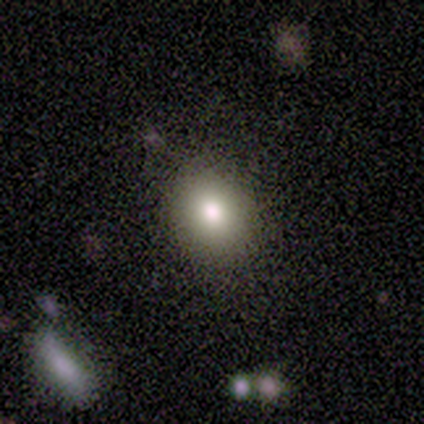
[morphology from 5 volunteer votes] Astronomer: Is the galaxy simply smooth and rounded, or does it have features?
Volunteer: smooth — 60%.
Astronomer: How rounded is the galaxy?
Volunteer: round — 67%.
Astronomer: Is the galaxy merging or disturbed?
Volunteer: none — 100%.